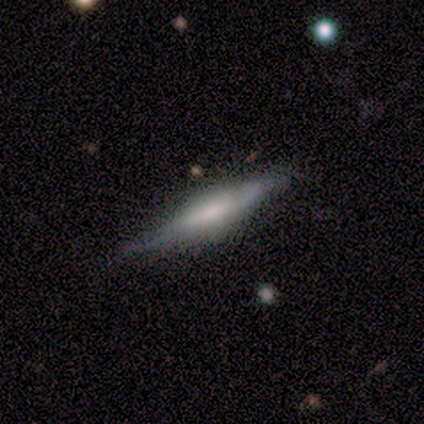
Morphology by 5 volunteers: A smooth galaxy with no disk features (60%) that is cigar-shaped (100%).

Vote fractions:
- Smooth or featured? smooth: 60% / featured or disk: 40% / star or artifact: 0%
- How rounded? cigar-shaped: 100% / round: 0% / in between: 0%
- Merging? none: 80% / minor disturbance: 20% / major disturbance: 0% / merger: 0%